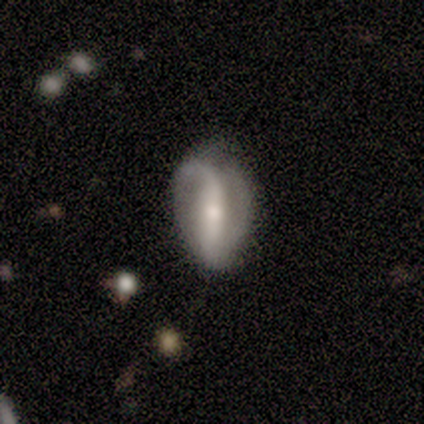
Morphology: type=smooth (50%, tied with featured or disk); roundness=in between (100%); merging=minor disturbance (50%).